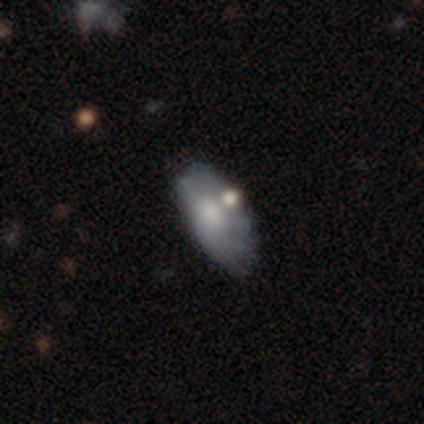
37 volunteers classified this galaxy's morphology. Smooth or featured? smooth (51%)
How rounded? in between (95%)
Merging? none (31%, tied with minor disturbance)